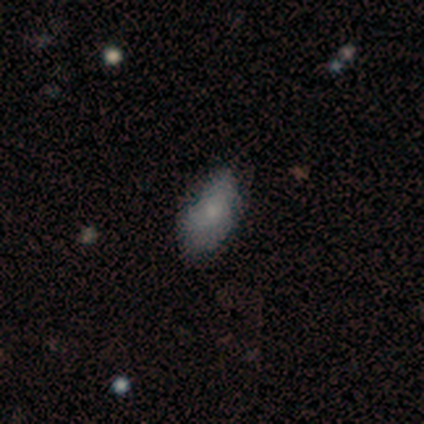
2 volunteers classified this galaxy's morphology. Smooth or featured? smooth (50%, tied with star or artifact)
How rounded? in between (100%)
Merging? none (100%)